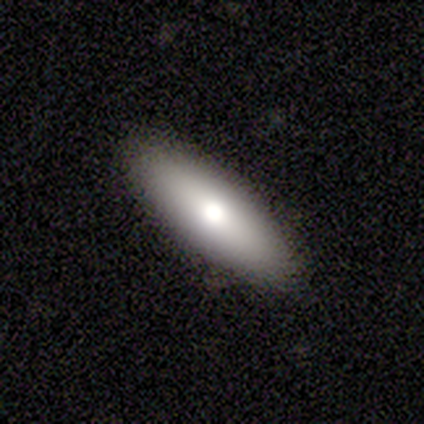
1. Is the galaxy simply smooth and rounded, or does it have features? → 88% smooth, 12% featured or disk, 0% star or artifact.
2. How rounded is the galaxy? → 57% in between, 43% cigar-shaped, 0% round.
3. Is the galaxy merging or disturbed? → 100% none, 0% minor disturbance, 0% major disturbance, 0% merger.